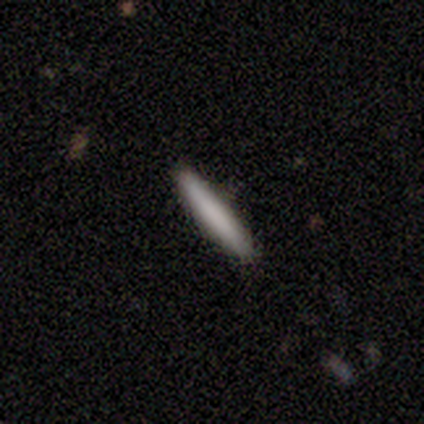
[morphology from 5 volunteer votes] A smooth galaxy with no disk features (80%) that is cigar-shaped (100%). Merging: none (80%).